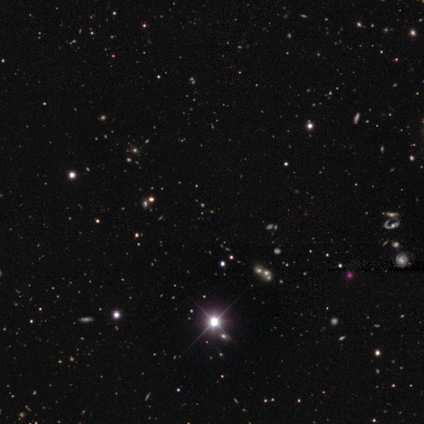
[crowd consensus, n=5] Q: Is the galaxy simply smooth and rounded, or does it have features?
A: star or artifact — 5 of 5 (100%).